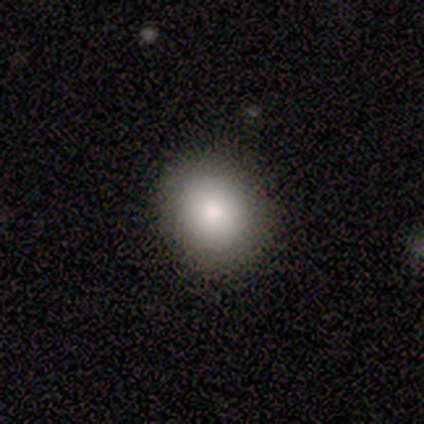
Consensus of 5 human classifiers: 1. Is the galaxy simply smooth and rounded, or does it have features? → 100% smooth, 0% featured or disk, 0% star or artifact.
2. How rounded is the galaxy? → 80% round, 20% in between, 0% cigar-shaped.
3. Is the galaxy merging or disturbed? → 80% none, 20% minor disturbance, 0% major disturbance, 0% merger.